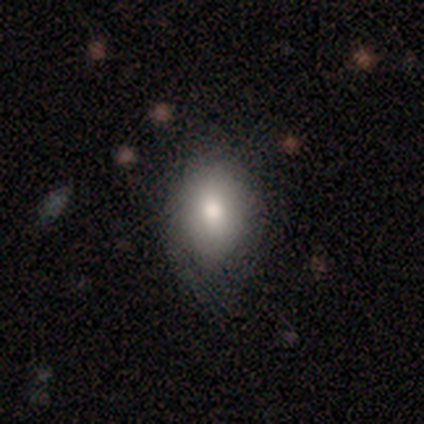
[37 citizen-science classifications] Overall: smooth (81%). How rounded: in between (67%; round 33%). Merging: none (40%; minor disturbance 26%).